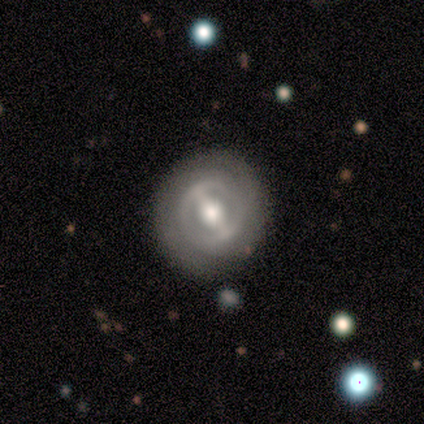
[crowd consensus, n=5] Smooth or featured? featured or disk (80%)
Edge-on disk? no (100%)
Bar? strong (100%)
Spiral arms? yes (75%)
Spiral winding? tight (100%)
Spiral arm count? 2 (67%)
Bulge size? moderate (75%)
Merging? none (100%)